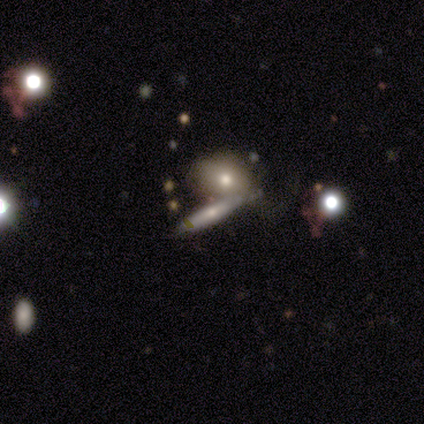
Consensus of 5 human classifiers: smooth_or_featured: featured or disk (p=0.60) [alt: smooth p=0.40]
disk_edge_on: yes (p=0.67) [alt: no p=0.33]
edge_on_bulge: rounded (p=1.00)
merging: none (p=0.40) [alt: minor disturbance p=0.20]